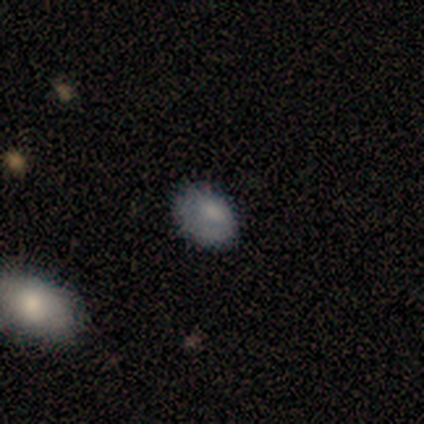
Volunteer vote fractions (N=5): Smooth or featured?
  - smooth: 60% *
  - star or artifact: 40%
  - featured or disk: 0%
How rounded?
  - in between: 100% *
  - round: 0%
  - cigar-shaped: 0%
Merging?
  - none: 67% *
  - minor disturbance: 33%
  - major disturbance: 0%
  - merger: 0%